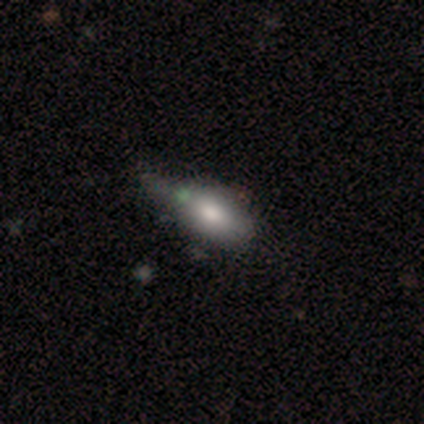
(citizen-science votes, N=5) Smooth or featured? 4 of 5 (80%) said smooth. How rounded? 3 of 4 (75%) said in between. Merging? 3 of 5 (60%) said none.